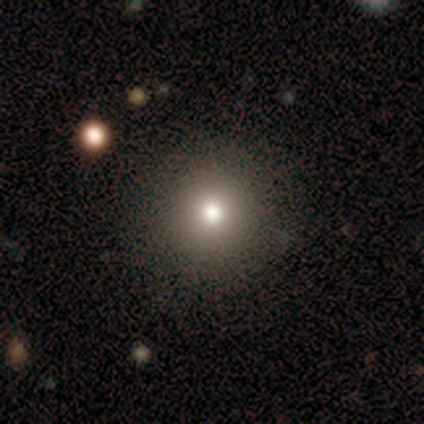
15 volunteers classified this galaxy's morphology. Volunteers were most divided on "smooth or featured": smooth: 87%, featured or disk: 7%, star or artifact: 7%. More confident: how rounded — round (100%); merging — none (93%).